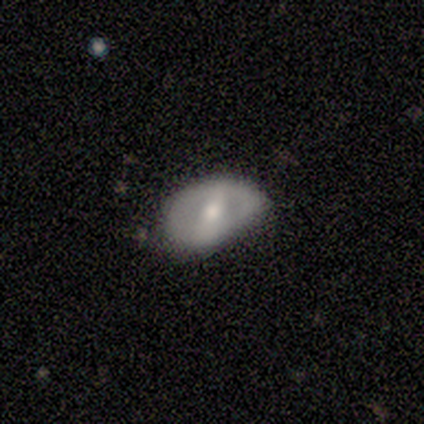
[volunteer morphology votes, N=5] Q: Smooth or featured?
A: featured or disk (60%); runner-up: smooth (20%)
Q: Edge-on disk?
A: no (100%)
Q: Bar?
A: strong (33%); tied with: weak (33%); no (33%)
Q: Spiral arms?
A: no (67%); runner-up: yes (33%)
Q: Bulge size?
A: moderate (67%); runner-up: small (33%)
Q: Merging?
A: none (100%)